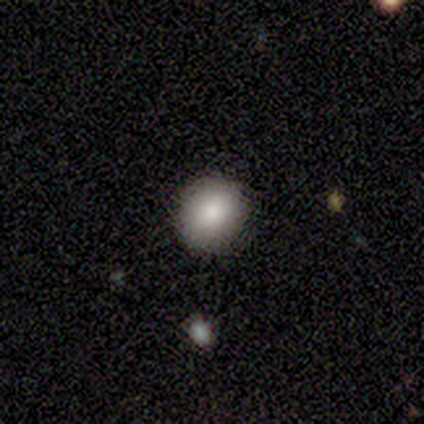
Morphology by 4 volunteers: This is clearly a smooth galaxy (100%). How rounded: likely round (75%). Merging: clearly none (100%).